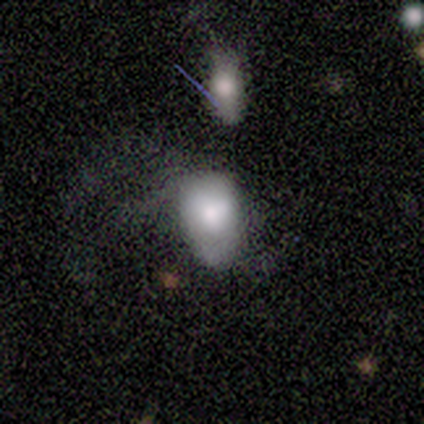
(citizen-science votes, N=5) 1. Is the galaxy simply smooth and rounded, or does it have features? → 80% smooth, 20% featured or disk, 0% star or artifact.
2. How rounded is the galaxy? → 75% in between, 25% round, 0% cigar-shaped.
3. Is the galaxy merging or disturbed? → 60% major disturbance, 20% none, 20% merger, 0% minor disturbance.